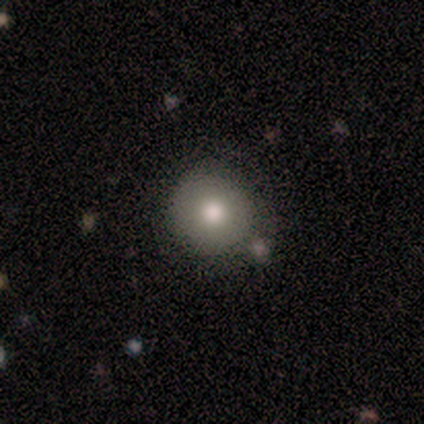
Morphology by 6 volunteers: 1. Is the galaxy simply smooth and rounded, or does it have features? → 83% smooth, 17% featured or disk, 0% star or artifact.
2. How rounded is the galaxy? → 100% round, 0% in between, 0% cigar-shaped.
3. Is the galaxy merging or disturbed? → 50% none, 17% minor disturbance, 17% major disturbance, 17% merger.